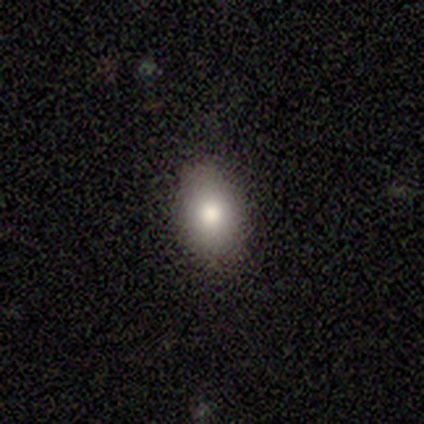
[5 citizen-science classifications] Smooth or featured: smooth — 80% (featured or disk — 20%)
How rounded: in between — 100%
Merging: none — 80% (minor disturbance — 20%)